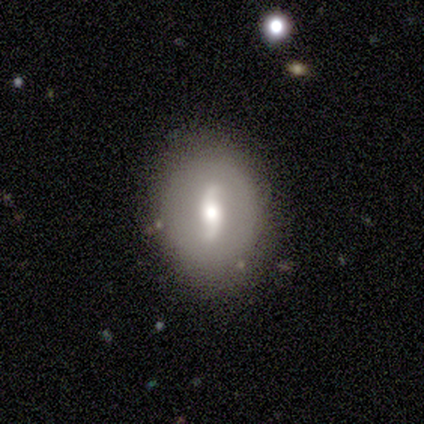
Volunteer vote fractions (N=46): Morphology: type=featured or disk (78%); edge-on=no (100%); bar=no (42%); spiral arms=yes (75%); winding=loose (70%); arm count=2 (93%); bulge=moderate (64%); merging=none (77%).